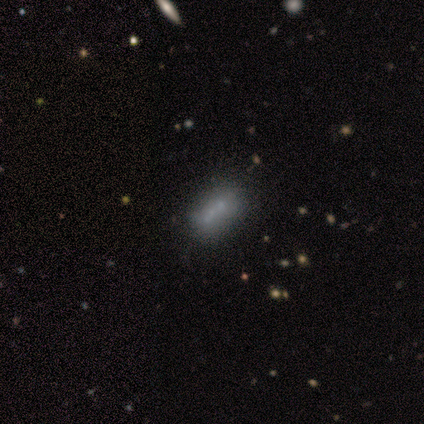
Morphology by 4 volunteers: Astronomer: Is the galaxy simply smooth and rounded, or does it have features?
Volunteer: featured or disk — 75%.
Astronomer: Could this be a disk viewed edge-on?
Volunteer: no — 67%.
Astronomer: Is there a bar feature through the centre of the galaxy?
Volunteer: no — 100%.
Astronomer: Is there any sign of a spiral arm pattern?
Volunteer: no — 100%.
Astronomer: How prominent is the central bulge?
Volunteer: small — 100%.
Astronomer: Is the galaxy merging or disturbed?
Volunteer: none — 67%.